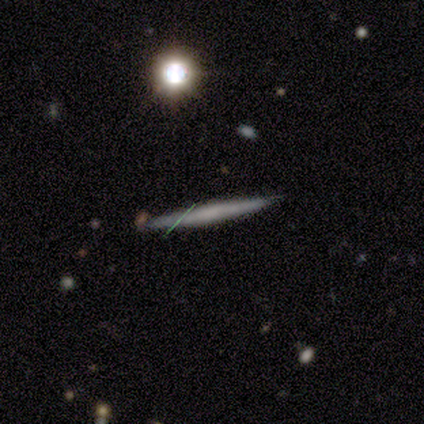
Smooth or featured? featured or disk (47%)
Edge-on disk? yes (94%)
Edge-on bulge? none (94%)
Merging? none (91%)